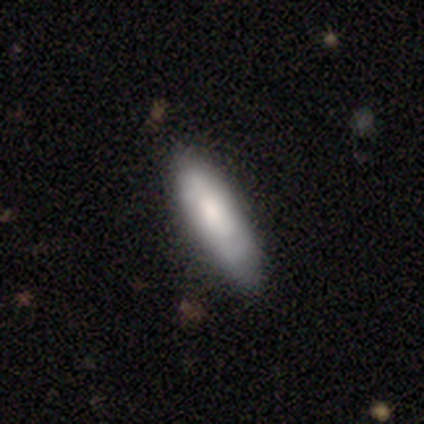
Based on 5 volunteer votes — Morphology: type=smooth (40%, tied with star or artifact); roundness=in between (50%, tied with cigar-shaped); merging=none (67%).